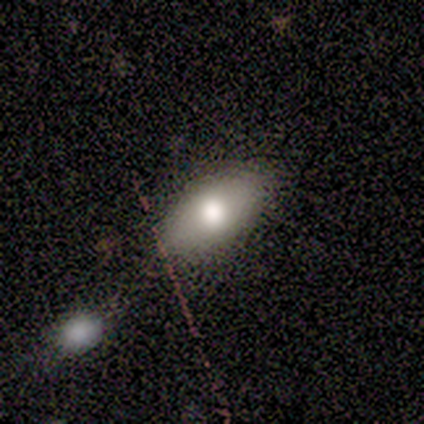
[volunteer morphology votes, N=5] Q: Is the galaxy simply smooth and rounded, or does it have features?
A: smooth — 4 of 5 (80%).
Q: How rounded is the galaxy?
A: in between — 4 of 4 (100%).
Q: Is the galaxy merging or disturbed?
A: none — 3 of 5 (60%).